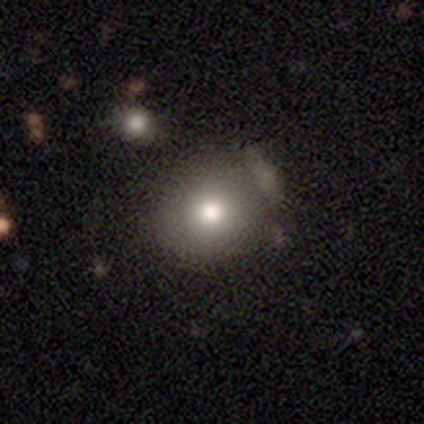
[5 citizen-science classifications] smooth 60%, featured or disk 20%, star or artifact 20%. Down the decision tree: how rounded — in between (67%); merging — none (75%).